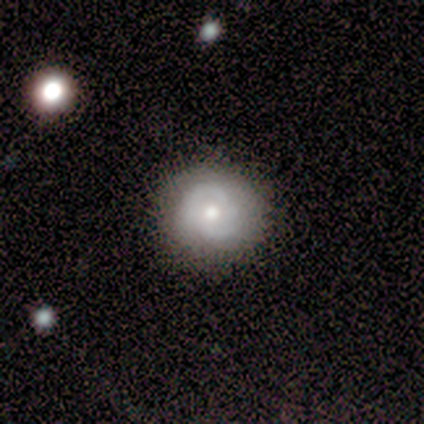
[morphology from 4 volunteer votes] Smooth or featured? featured or disk (100%)
Edge-on disk? no (100%)
Bar? no (100%)
Spiral arms? yes (100%)
Spiral winding? tight (75%)
Spiral arm count? 1 (25%, tied with 2, more than 4 and can't tell)
Bulge size? moderate (75%)
Merging? none (100%)